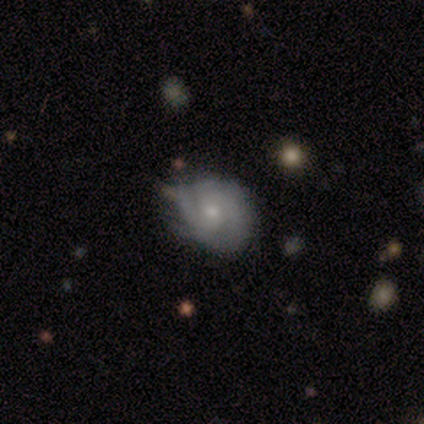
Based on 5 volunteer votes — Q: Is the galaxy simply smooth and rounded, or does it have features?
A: featured or disk — 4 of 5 (80%).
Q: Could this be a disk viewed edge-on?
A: no — 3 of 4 (75%).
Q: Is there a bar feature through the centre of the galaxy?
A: no — 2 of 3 (67%).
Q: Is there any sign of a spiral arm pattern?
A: yes — 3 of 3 (100%).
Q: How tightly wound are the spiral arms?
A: tight — 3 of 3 (100%).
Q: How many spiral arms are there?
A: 2 — 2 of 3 (67%).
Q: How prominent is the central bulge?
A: small — 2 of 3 (67%).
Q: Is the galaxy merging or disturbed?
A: minor disturbance — 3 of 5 (60%).